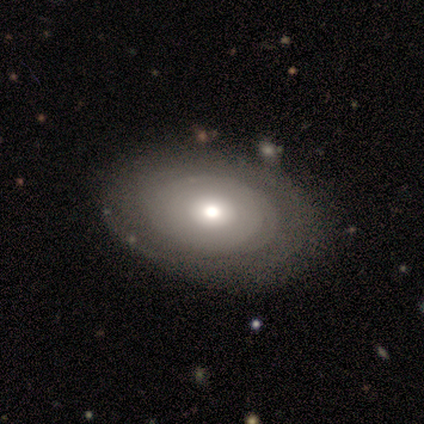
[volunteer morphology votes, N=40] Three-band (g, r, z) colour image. It shows a featured or disk galaxy (65%) with no bar (92%), no spiral arms (56%) and a moderate central bulge (76%). Merging: none (59%).